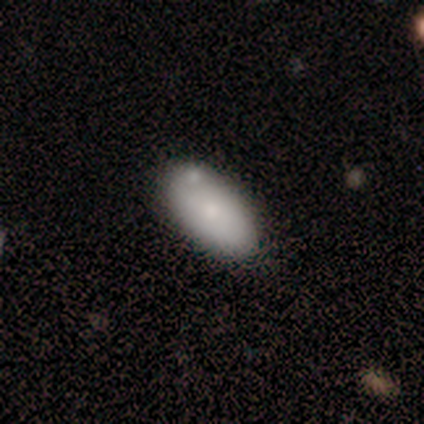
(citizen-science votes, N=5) smooth-or-featured: smooth: 80% | featured or disk: 20% | star or artifact: 0%
  how-rounded: in between: 100% | round: 0% | cigar-shaped: 0%
  merging: none: 60% | minor disturbance: 20% | major disturbance: 20% | merger: 0%